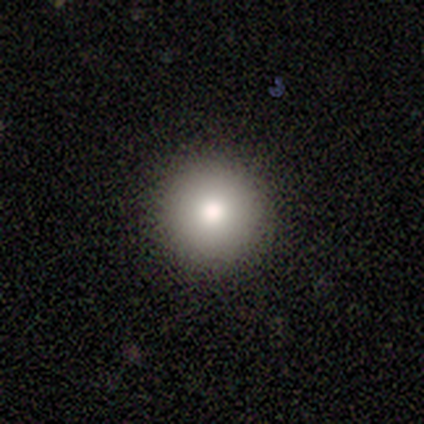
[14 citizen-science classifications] Smooth or featured? 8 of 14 (57%) said smooth. How rounded? 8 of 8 (100%) said round. Merging? 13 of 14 (93%) said none.